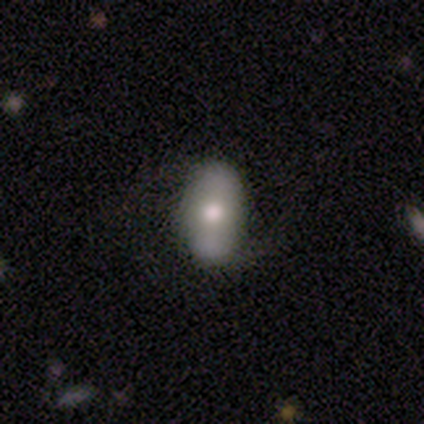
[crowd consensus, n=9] Overall: smooth (67%; featured or disk 33%). How rounded: in between (83%). Merging: none (89%).